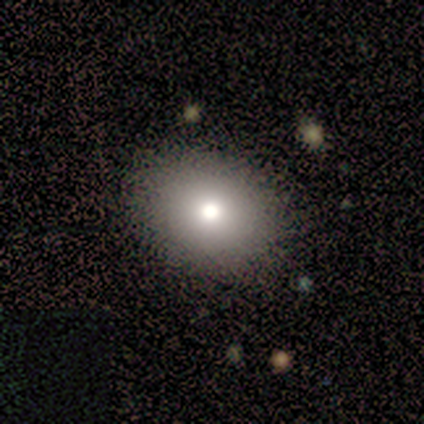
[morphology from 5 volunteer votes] Smooth or featured? 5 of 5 (100%) said smooth. How rounded? 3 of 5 (60%) said round. Merging? 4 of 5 (80%) said none.